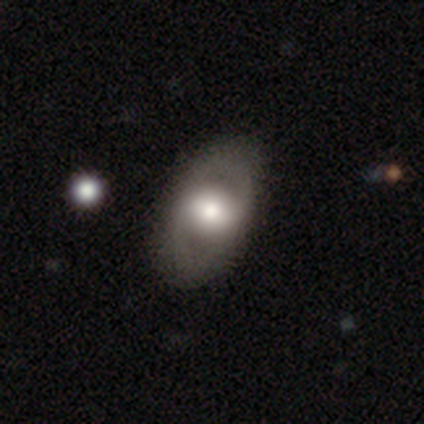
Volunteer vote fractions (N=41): featured or disk 63%, smooth 32%, star or artifact 5%. Down the decision tree: edge-on disk — no (96%); bar — no (52%); spiral arms — no (60%); bulge size — moderate (64%); merging — none (54%).